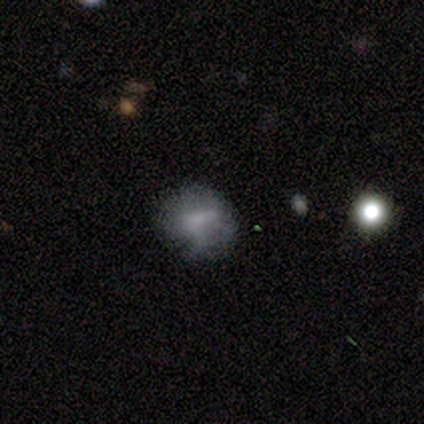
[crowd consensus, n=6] Smooth or featured? featured or disk (83%)
Edge-on disk? no (100%)
Bar? strong (60%)
Spiral arms? no (60%)
Bulge size? moderate (60%)
Merging? none (50%)